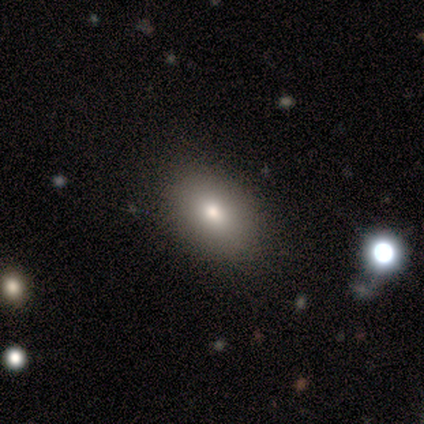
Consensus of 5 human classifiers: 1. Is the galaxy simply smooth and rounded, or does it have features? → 80% smooth, 20% featured or disk, 0% star or artifact.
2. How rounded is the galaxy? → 100% in between, 0% round, 0% cigar-shaped.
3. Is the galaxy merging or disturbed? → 100% none, 0% minor disturbance, 0% major disturbance, 0% merger.